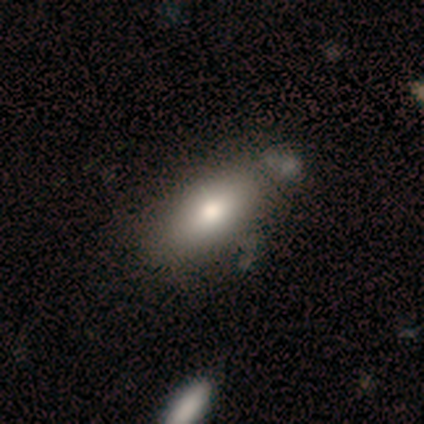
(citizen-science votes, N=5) smooth_or_featured: smooth (p=0.60) [alt: featured or disk p=0.20]
how_rounded: in between (p=1.00)
merging: none (p=0.75) [alt: merger p=0.25]